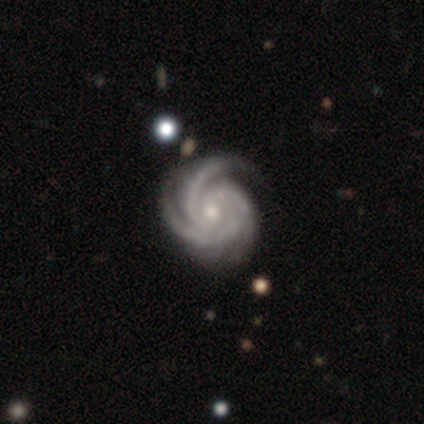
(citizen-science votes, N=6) smooth_or_featured: featured or disk (p=1.00)
disk_edge_on: no (p=1.00)
bar: no (p=0.67) [alt: strong p=0.17]
has_spiral_arms: yes (p=1.00)
spiral_winding: tight (p=0.83) [alt: medium p=0.17]
spiral_arm_count: 3 (p=0.67) [alt: 2 p=0.17]
bulge_size: moderate (p=0.67) [alt: small p=0.33]
merging: none (p=0.50) [tied with: minor disturbance p=0.50]